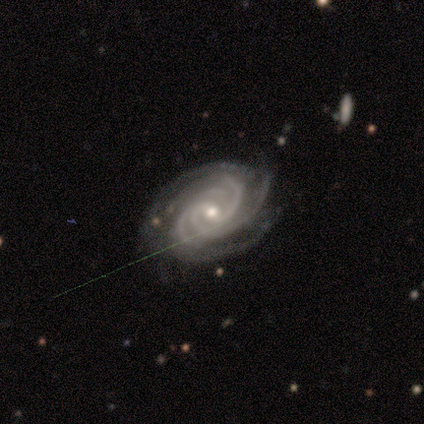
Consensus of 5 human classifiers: Smooth or featured? featured or disk (100%)
Edge-on disk? no (100%)
Bar? no (100%)
Spiral arms? yes (100%)
Spiral winding? tight (80%)
Spiral arm count? 2 (40%)
Bulge size? small (60%)
Merging? none (100%)